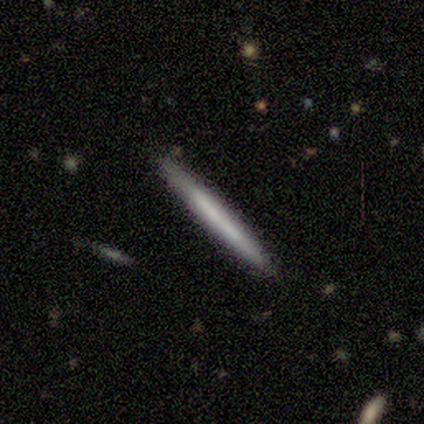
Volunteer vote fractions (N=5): A smooth galaxy with no disk features (60%) that is cigar-shaped (100%). Merging: none (100%).